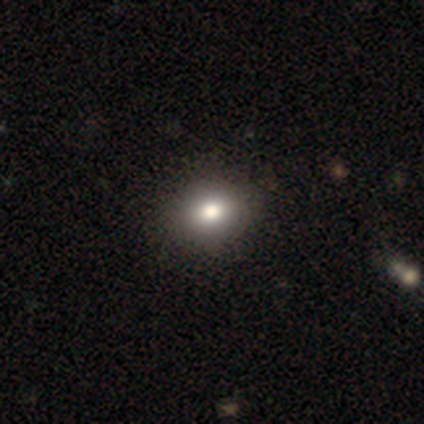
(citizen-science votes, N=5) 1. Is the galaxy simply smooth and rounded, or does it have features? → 100% smooth, 0% featured or disk, 0% star or artifact.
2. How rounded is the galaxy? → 80% in between, 20% round, 0% cigar-shaped.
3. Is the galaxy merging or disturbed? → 100% none, 0% minor disturbance, 0% major disturbance, 0% merger.